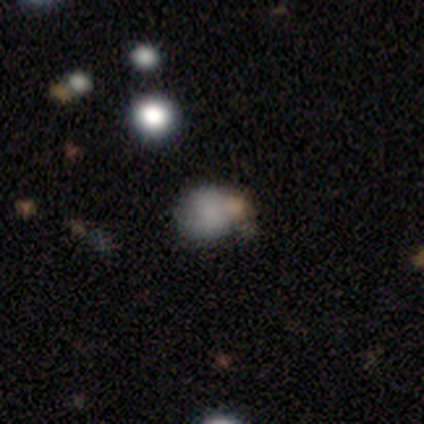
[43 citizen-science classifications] smooth_or_featured: smooth (p=0.79) [alt: star or artifact p=0.14]
how_rounded: round (p=0.62) [alt: in between p=0.38]
merging: none (p=0.43) [alt: merger p=0.22]